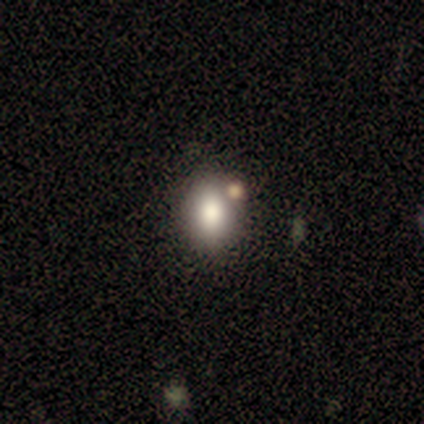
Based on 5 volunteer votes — Volunteers were most divided on "how rounded": round: 80%, in between: 20%, cigar-shaped: 0%. More confident: smooth or featured — smooth (100%); merging — none (100%).